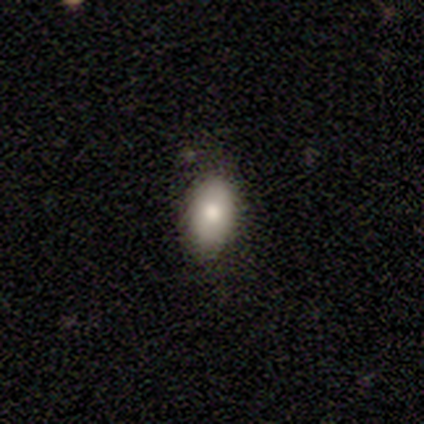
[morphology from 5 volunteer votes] A smooth galaxy with no disk features (100%) that is in between round and cigar-shaped (80%).

Vote fractions:
- Smooth or featured? smooth: 100% / featured or disk: 0% / star or artifact: 0%
- How rounded? in between: 80% / round: 20% / cigar-shaped: 0%
- Merging? none: 100% / minor disturbance: 0% / major disturbance: 0% / merger: 0%